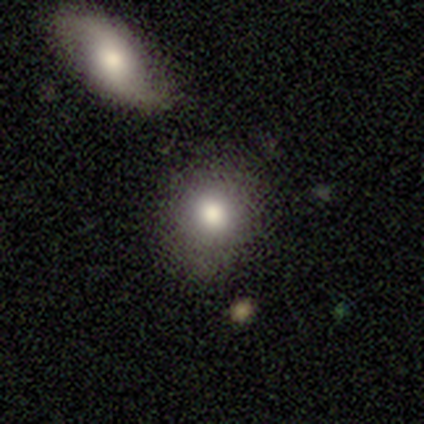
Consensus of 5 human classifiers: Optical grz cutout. It shows a smooth galaxy with no disk features (100%) that is round (60%). Merging: none (80%).